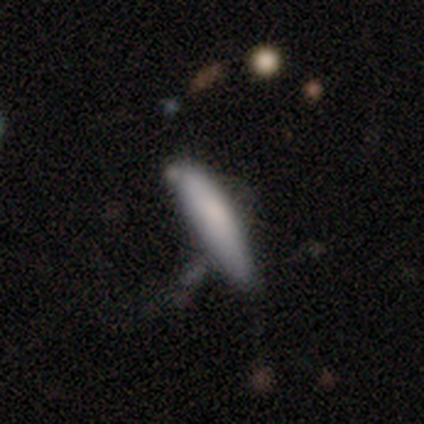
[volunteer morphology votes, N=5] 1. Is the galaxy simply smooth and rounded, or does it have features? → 80% smooth, 20% star or artifact, 0% featured or disk.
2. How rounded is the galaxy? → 75% cigar-shaped, 25% in between, 0% round.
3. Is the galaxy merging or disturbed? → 50% none, 25% minor disturbance, 25% major disturbance, 0% merger.